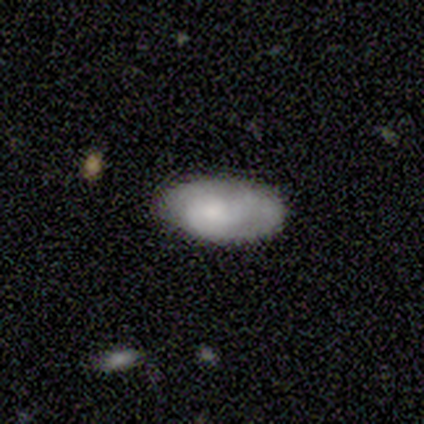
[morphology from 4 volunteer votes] This appears to be a smooth galaxy with no disk features (100%) that is in between round and cigar-shaped (100%). Merging: none (75%).